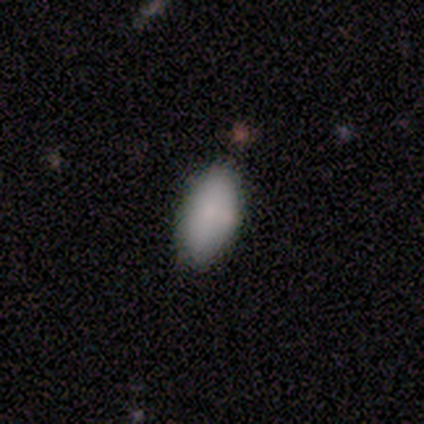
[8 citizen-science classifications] smooth 100%, featured or disk 0%, star or artifact 0%. Down the decision tree: how rounded — in between (100%); merging — none (75%).